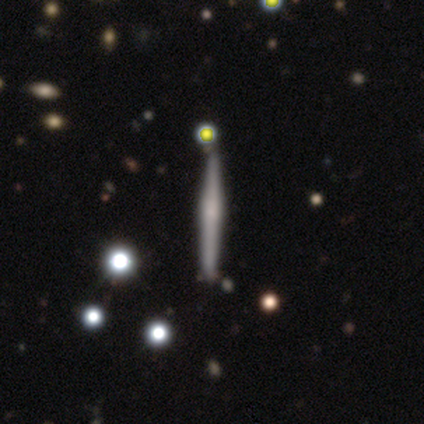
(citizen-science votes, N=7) Smooth or featured? featured or disk (71%)
Edge-on disk? yes (100%)
Edge-on bulge? none (60%)
Merging? none (86%)